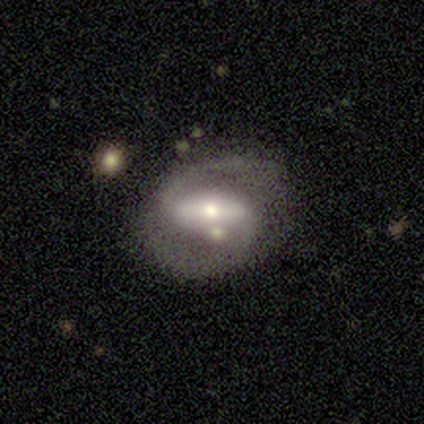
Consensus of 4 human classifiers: Volunteers were most divided on "spiral winding" (3-way tie): tight: 33%, medium: 33%, loose: 33%; "bulge size" (2-way tie): moderate: 50%, small: 50%, dominant: 0%, large: 0%, none: 0%. More confident: smooth or featured — featured or disk (100%); edge-on disk — no (100%); spiral arm count — 2 (100%); bar — strong (75%); spiral arms — yes (75%); merging — none (75%).